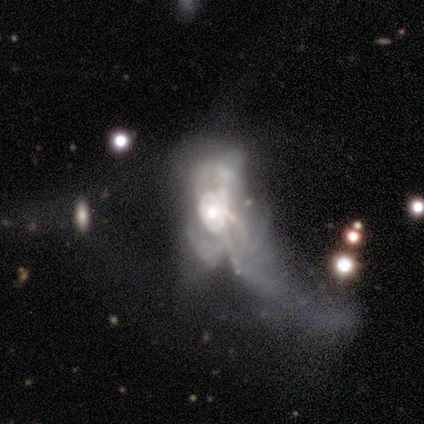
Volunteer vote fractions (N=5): Volunteers were most divided on "spiral arms" (2-way tie): yes: 50%, no: 50%; "spiral winding" (2-way tie): tight: 50%, medium: 50%, loose: 0%. More confident: edge-on disk — no (100%); spiral arm count — can't tell (100%); smooth or featured — featured or disk (80%); merging — major disturbance (75%); bar — no (50%); bulge size — large (50%).